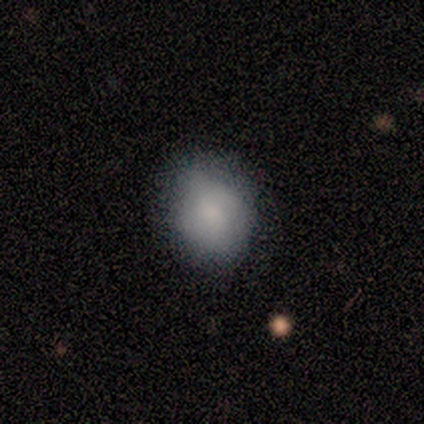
smooth_or_featured: smooth (p=0.80) [alt: featured or disk p=0.20]
how_rounded: in between (p=0.75) [alt: round p=0.25]
merging: none (p=0.40) [tied with: minor disturbance p=0.40]